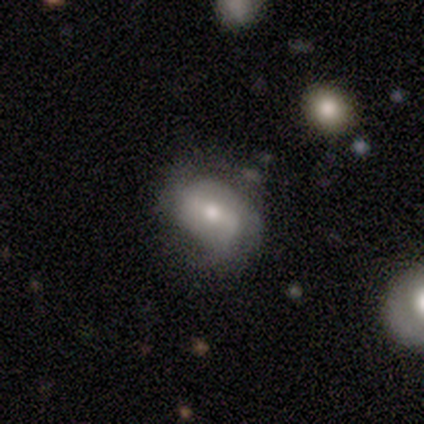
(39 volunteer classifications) Morphology: type=featured or disk (64%); edge-on=no (96%); bar=weak (62%); spiral arms=yes (75%); winding=medium (50%); arm count=2 (67%); bulge=moderate (62%); merging=none (53%).